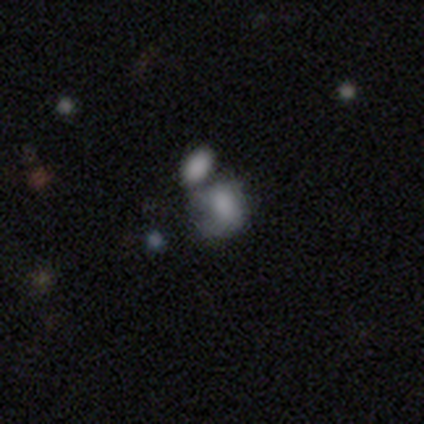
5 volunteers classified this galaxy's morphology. Volunteers were most divided on "merging": major disturbance: 50%, none: 25%, minor disturbance: 25%, merger: 0%. More confident: how rounded — round (67%); smooth or featured — smooth (60%).